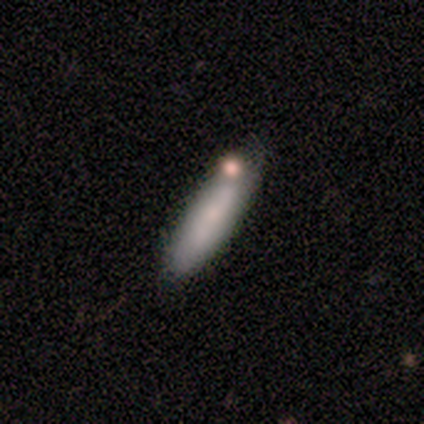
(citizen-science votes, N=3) This is likely a smooth galaxy (67%). How rounded: clearly cigar-shaped (100%). Merging: clearly none (100%).